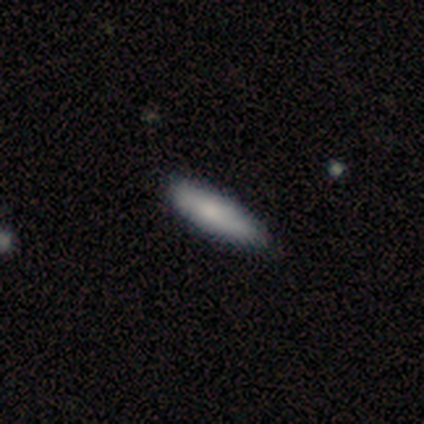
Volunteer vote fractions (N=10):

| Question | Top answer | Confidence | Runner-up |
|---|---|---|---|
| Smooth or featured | smooth | 100% | — |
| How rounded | cigar-shaped | 70% | in between (30%) |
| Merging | none | 80% | minor disturbance (20%) |